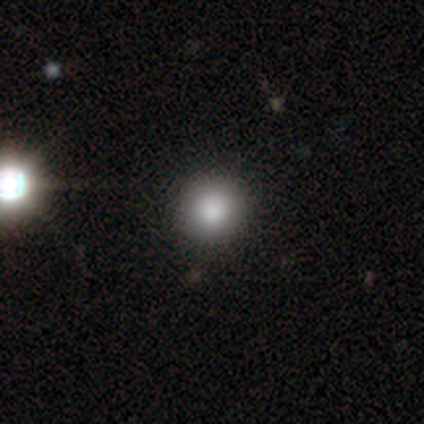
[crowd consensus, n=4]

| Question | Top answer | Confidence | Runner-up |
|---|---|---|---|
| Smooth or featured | smooth | 75% | star or artifact (25%) |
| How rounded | round | 100% | — |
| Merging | none | 100% | — |